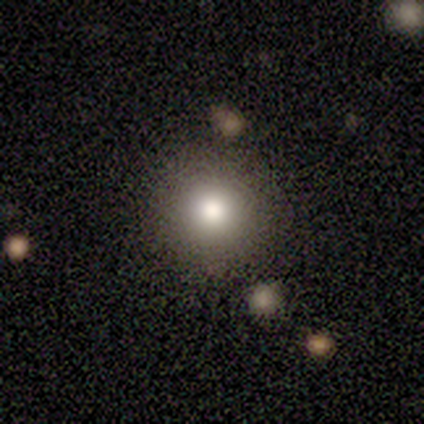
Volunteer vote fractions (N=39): Smooth or featured: smooth — 82% (featured or disk — 10%)
How rounded: round — 97% (in between — 3%)
Merging: none — 92% (major disturbance — 6%)